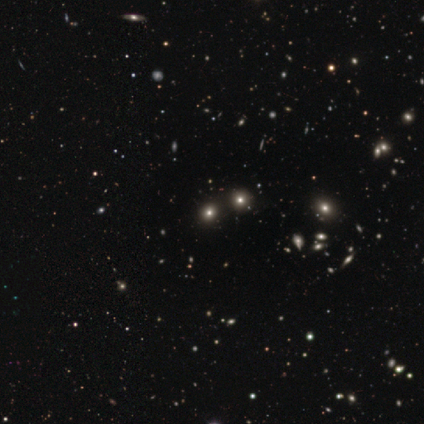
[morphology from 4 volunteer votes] Q: Smooth or featured?
A: star or artifact (75%); runner-up: smooth (25%)